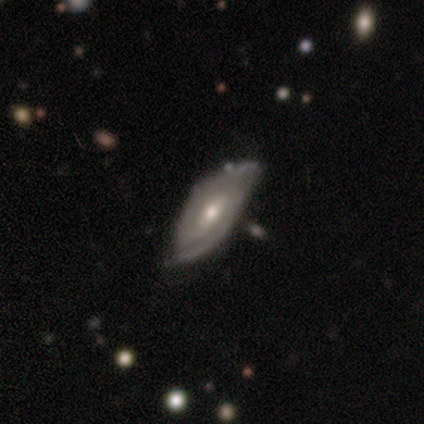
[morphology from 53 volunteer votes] Smooth or featured: featured or disk — 81% (smooth — 15%)
Edge-on disk: no — 98% (yes — 2%)
Bar: weak — 60% (no — 29%)
Spiral arms: yes — 93% (no — 7%)
Spiral winding: tight — 54% (medium — 36%)
Spiral arm count: 2 — 77% (can't tell — 13%)
Bulge size: moderate — 74% (small — 26%)
Merging: none — 69% (minor disturbance — 20%)